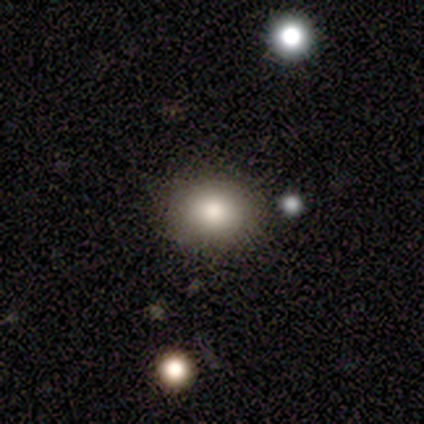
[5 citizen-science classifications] This appears to be a smooth galaxy with no disk features (60%) that is round (67%). Merging: none (50%, tied with minor disturbance).